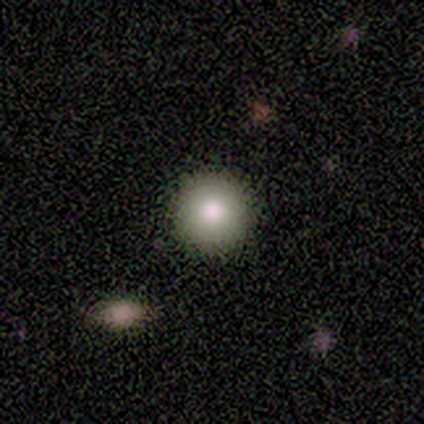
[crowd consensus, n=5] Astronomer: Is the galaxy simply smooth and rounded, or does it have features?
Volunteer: smooth — 60%.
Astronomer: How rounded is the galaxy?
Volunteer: round — 100%.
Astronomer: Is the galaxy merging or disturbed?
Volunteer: none — 75%.